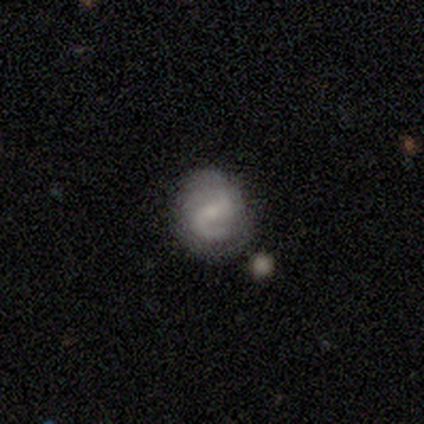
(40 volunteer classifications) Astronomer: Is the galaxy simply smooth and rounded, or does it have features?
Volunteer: featured or disk — 68%.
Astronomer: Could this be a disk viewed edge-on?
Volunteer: no — 100%.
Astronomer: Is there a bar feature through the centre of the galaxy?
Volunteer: weak — 67%.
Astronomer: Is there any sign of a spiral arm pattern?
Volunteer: yes — 93%.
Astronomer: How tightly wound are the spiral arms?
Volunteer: medium — 52% (runner-up: loose, 32%).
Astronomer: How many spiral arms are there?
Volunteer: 2 — 80%.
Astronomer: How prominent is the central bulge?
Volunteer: small — 67%.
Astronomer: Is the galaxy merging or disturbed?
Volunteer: none — 80%.